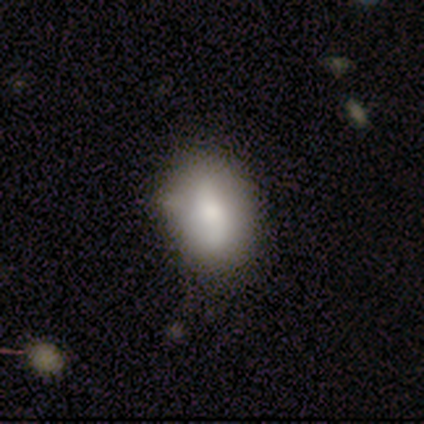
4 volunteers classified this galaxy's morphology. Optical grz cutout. It shows a smooth galaxy with no disk features (50%, tied with featured or disk) that is in between round and cigar-shaped (50%, tied with cigar-shaped). Merging: none (50%, tied with minor disturbance).